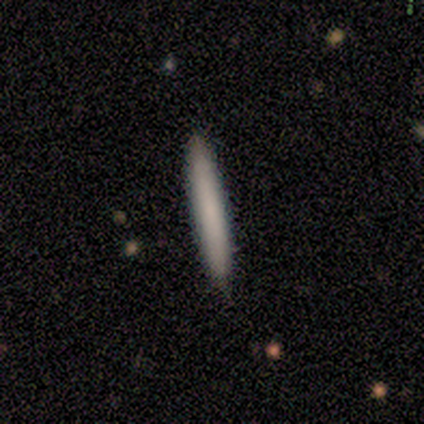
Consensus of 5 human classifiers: This is likely a smooth galaxy (60%). How rounded: clearly cigar-shaped (100%). Merging: likely none (60%).